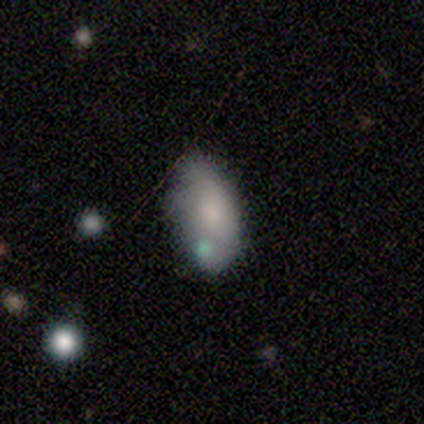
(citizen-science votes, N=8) Q: Smooth or featured?
A: smooth (88%); runner-up: featured or disk (12%)
Q: How rounded?
A: in between (86%); runner-up: round (14%)
Q: Merging?
A: none (50%); runner-up: merger (38%)